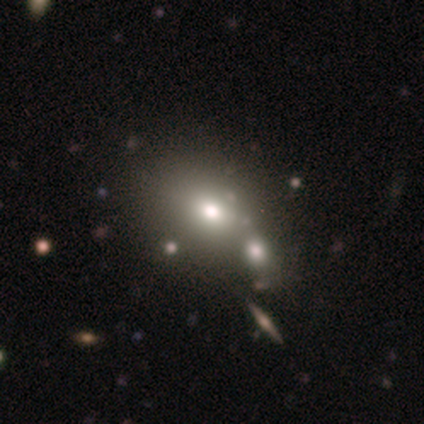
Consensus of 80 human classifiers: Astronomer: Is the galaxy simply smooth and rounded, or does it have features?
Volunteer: smooth — 76%.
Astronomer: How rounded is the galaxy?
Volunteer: in between — 54% (runner-up: round, 46%).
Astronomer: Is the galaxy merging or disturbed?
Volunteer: merger — 38% (runner-up: none, 24%).